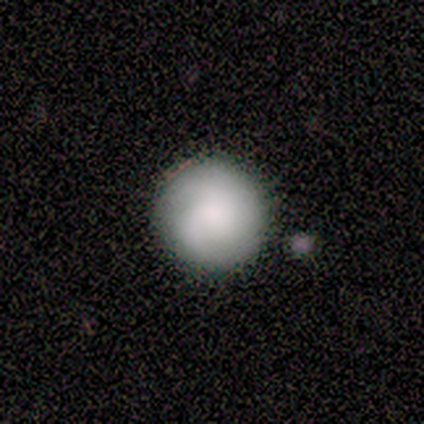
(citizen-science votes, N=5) smooth_or_featured: featured or disk (p=0.60) [alt: smooth p=0.40]
disk_edge_on: no (p=1.00)
bar: no (p=0.67) [alt: strong p=0.33]
has_spiral_arms: yes (p=1.00)
spiral_winding: medium (p=0.67) [alt: tight p=0.33]
spiral_arm_count: can't tell (p=1.00)
bulge_size: small (p=0.67) [alt: dominant p=0.33]
merging: none (p=0.60) [alt: minor disturbance p=0.20]